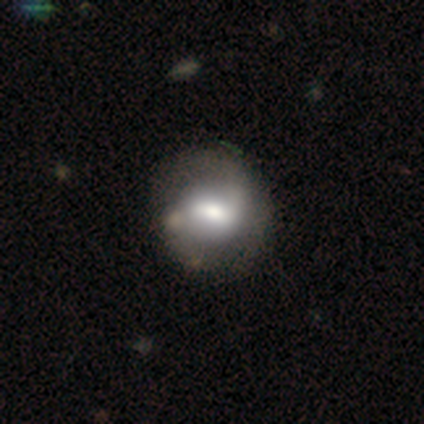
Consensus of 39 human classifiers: This is likely a featured or disk galaxy (69%). It is clearly not viewed edge-on (89%). Bar: likely weak (75%). Spiral arm pattern: clearly yes (88%). Spiral arm count: clearly 2 (81%). Spiral winding: marginally loose (38%). Central bulge: likely moderate (71%). Merging: possibly none (53%).